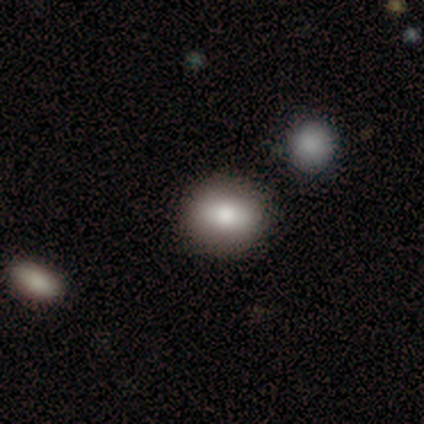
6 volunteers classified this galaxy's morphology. Smooth or featured: smooth — 67% (featured or disk — 33%)
How rounded: round — 75% (in between — 25%)
Merging: none — 83% (merger — 17%)